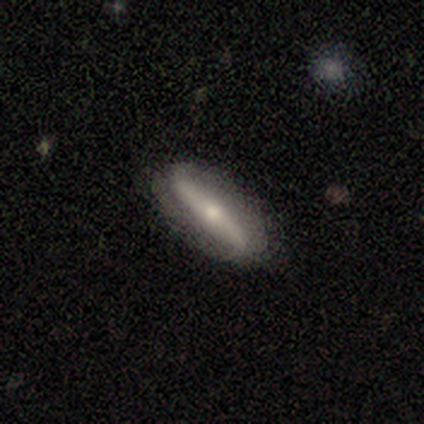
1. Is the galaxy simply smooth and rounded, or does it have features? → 72% featured or disk, 23% smooth, 5% star or artifact.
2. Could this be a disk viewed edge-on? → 61% no, 39% yes.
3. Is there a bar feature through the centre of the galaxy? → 76% strong, 18% no, 6% weak.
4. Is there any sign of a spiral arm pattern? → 59% yes, 41% no.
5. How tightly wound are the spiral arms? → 90% loose, 10% tight, 0% medium.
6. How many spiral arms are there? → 100% 2, 0% 1, 0% 3, 0% 4, 0% more than 4, 0% can't tell.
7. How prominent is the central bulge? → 53% small, 41% moderate, 6% none, 0% dominant, 0% large.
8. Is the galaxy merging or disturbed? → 78% none, 16% minor disturbance, 5% major disturbance, 0% merger.